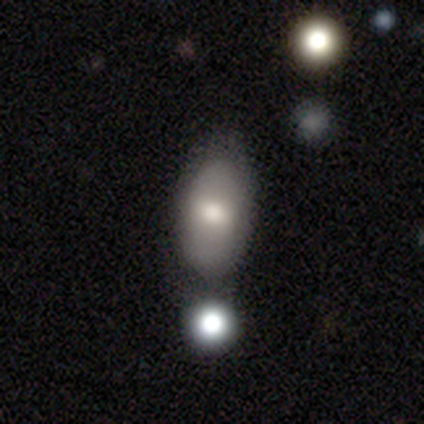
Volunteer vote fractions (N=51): smooth_or_featured: smooth (p=0.59) [alt: featured or disk p=0.29]
how_rounded: in between (p=0.93) [alt: round p=0.07]
merging: none (p=0.42) [alt: minor disturbance p=0.31]